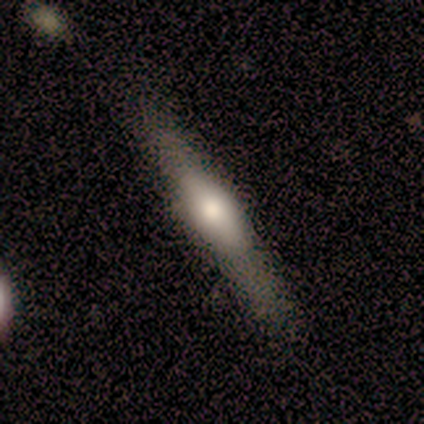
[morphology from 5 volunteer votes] smooth-or-featured: smooth: 60% | featured or disk: 40% | star or artifact: 0%
  how-rounded: cigar-shaped: 67% | in between: 33% | round: 0%
  merging: none: 60% | minor disturbance: 20% | major disturbance: 20% | merger: 0%